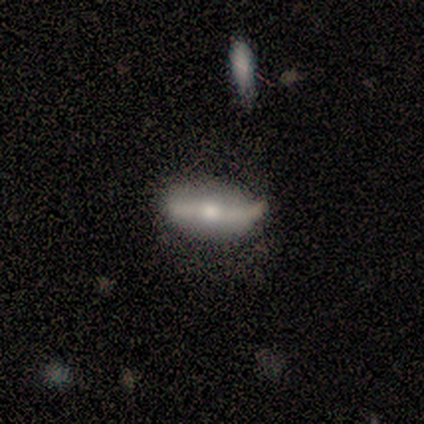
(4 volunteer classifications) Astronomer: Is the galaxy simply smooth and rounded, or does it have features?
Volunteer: featured or disk — 75%.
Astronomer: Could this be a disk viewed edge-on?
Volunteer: yes — 67%.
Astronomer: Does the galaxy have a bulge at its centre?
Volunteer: boxy — 50%, tied with rounded at 50%.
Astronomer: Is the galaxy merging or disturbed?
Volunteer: none — 75%.